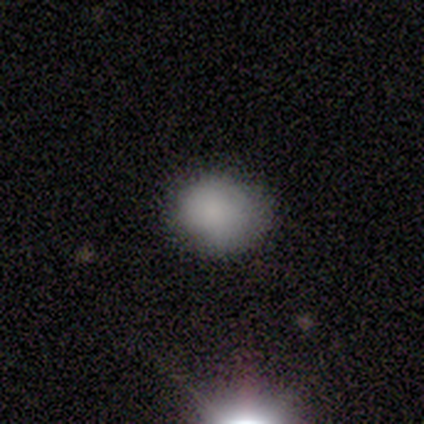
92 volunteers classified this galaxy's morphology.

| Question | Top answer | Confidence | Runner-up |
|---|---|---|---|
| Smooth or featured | smooth | 75% | star or artifact (17%) |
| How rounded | round | 65% | in between (35%) |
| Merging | none | 75% | minor disturbance (21%) |